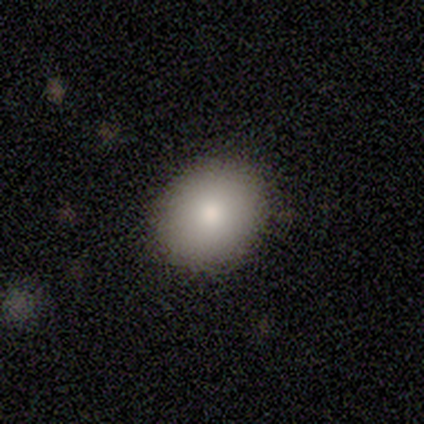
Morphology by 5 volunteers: smooth-or-featured: smooth: 100% | featured or disk: 0% | star or artifact: 0%
  how-rounded: round: 60% | in between: 40% | cigar-shaped: 0%
  merging: none: 60% | minor disturbance: 40% | major disturbance: 0% | merger: 0%